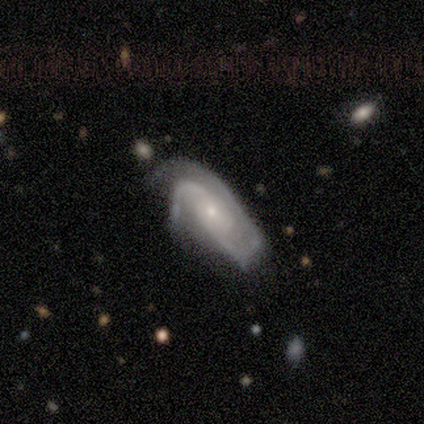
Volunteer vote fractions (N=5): Overall: featured or disk (100%). Edge-on disk: no (100%). Bar: no (100%). Spiral arms: yes (80%). Spiral arm count: 2 (100%). Spiral winding: tight (50%; medium 25%). Bulge size: small (60%; large 20%). Merging: none (60%; minor disturbance 20%).